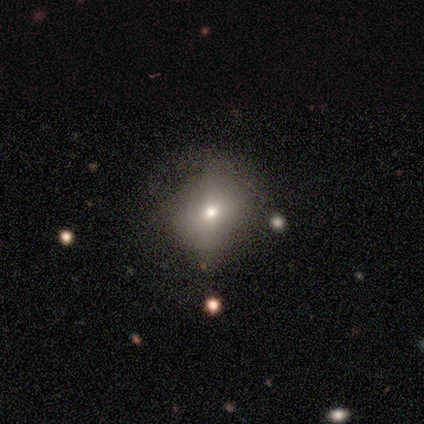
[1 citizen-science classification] Smooth or featured? 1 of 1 (100%) said smooth. How rounded? 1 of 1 (100%) said in between. Merging? 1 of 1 (100%) said none.